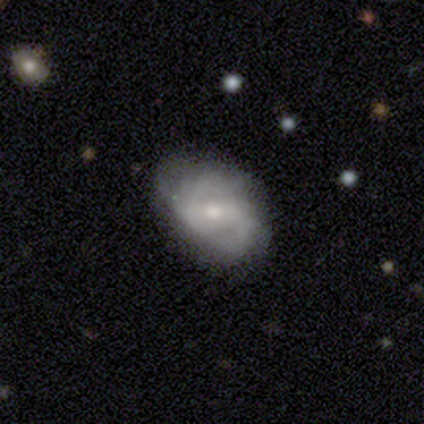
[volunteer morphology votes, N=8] This is likely a featured or disk galaxy (75%). It is clearly not viewed edge-on (100%). Bar: possibly strong (50%). Spiral arm pattern: clearly yes (100%). Spiral arm count: clearly 2 (100%). Spiral winding: marginally tight (33%, tied with medium and loose). Central bulge: likely small (67%). Merging: possibly minor disturbance (57%).